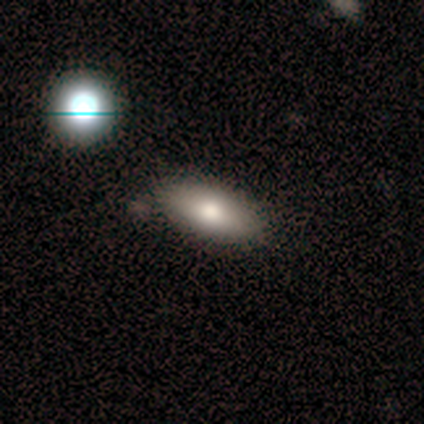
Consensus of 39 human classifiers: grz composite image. It shows a smooth galaxy with no disk features (62%) that is in between round and cigar-shaped (71%). Merging: none (71%).